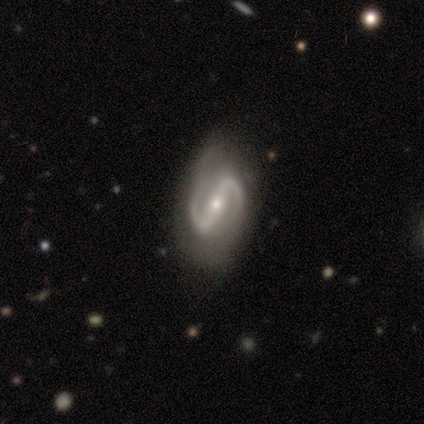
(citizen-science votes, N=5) smooth-or-featured: featured or disk: 100% | smooth: 0% | star or artifact: 0%
  disk-edge-on: no: 100% | yes: 0%
    bar: weak: 60% | strong: 40% | no: 0%
    has-spiral-arms: yes: 80% | no: 20%
      spiral-winding: medium: 50% | tight: 25% | loose: 25%
      spiral-arm-count: 2: 100% | 1: 0% | 3: 0% | 4: 0% | more than 4: 0% | can't tell: 0%
    bulge-size: moderate: 40% (tied) | small: 40% (tied) | none: 20% | dominant: 0% | large: 0%
  merging: none: 40% (tied) | minor disturbance: 40% (tied) | major disturbance: 20% | merger: 0%